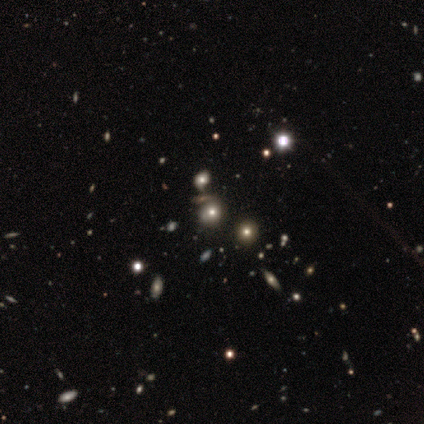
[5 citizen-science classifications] Smooth or featured?
  - smooth: 60% *
  - star or artifact: 40%
  - featured or disk: 0%
How rounded?
  - round: 100% *
  - in between: 0%
  - cigar-shaped: 0%
Merging?
  - none: 67% *
  - minor disturbance: 33%
  - major disturbance: 0%
  - merger: 0%